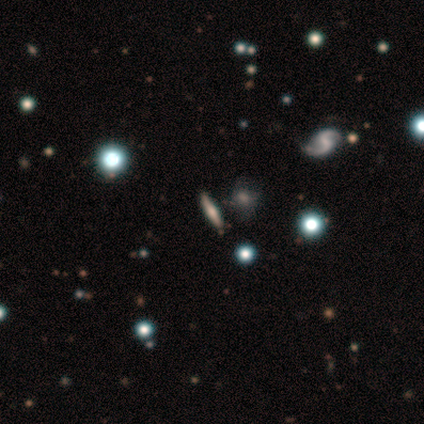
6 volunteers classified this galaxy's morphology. smooth_or_featured: smooth (p=0.50) [alt: featured or disk p=0.33]
how_rounded: cigar-shaped (p=0.67) [alt: in between p=0.33]
merging: none (p=0.80) [alt: minor disturbance p=0.20]